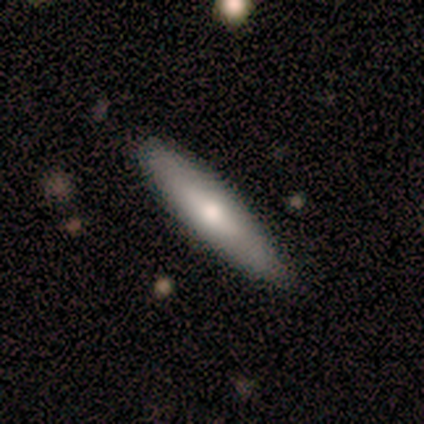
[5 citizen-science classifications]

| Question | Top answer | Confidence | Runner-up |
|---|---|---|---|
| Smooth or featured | smooth | 100% | — |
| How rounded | cigar-shaped | 60% | in between (40%) |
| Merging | none | 60% | minor disturbance (40%) |